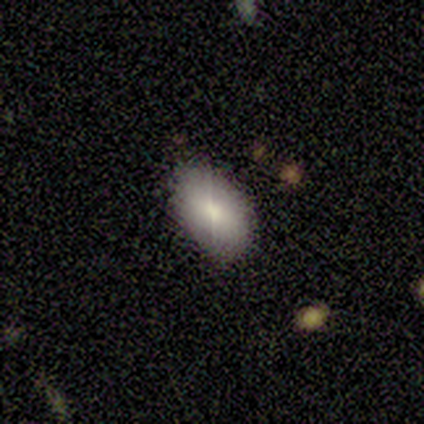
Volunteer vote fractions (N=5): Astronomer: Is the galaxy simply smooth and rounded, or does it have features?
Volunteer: smooth — 60%.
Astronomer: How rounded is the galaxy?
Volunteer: in between — 100%.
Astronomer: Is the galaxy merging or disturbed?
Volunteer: none — 75%.